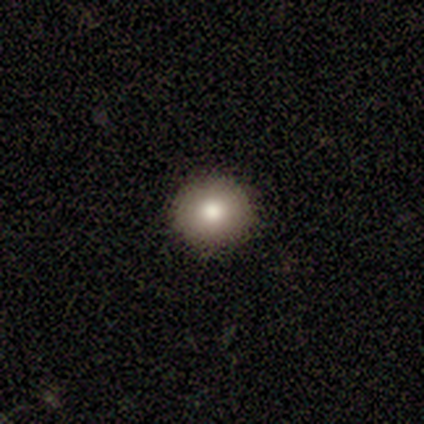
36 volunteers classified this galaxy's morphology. Smooth or featured?
  - smooth: 78% *
  - featured or disk: 19%
  - star or artifact: 3%
How rounded?
  - round: 93% *
  - in between: 7%
  - cigar-shaped: 0%
Merging?
  - none: 86% *
  - minor disturbance: 9%
  - major disturbance: 6%
  - merger: 0%